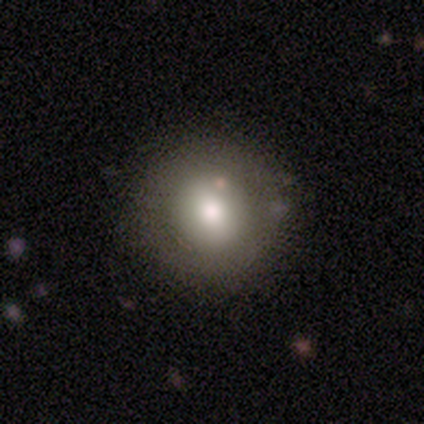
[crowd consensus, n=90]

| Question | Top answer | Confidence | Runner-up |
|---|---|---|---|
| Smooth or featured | smooth | 74% | featured or disk (16%) |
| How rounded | round | 93% | in between (7%) |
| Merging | none | 91% | minor disturbance (6%) |